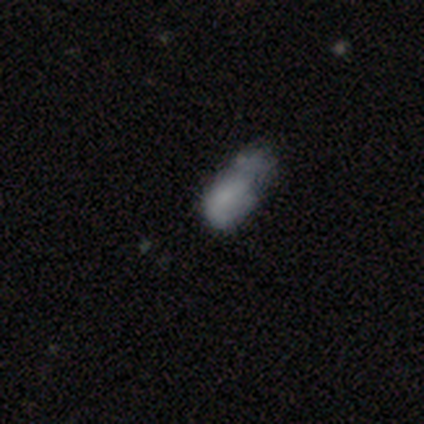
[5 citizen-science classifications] Smooth or featured? 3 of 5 (60%) said smooth. How rounded? 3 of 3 (100%) said in between. Merging? 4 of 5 (80%) said major disturbance.